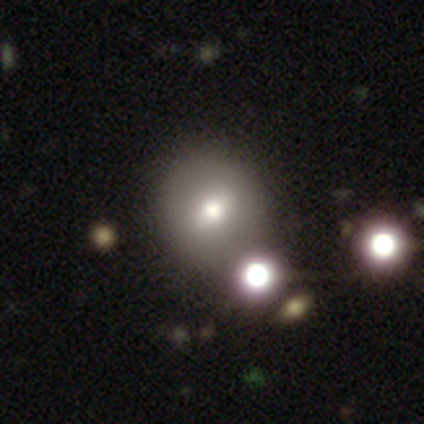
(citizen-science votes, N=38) This is possibly a smooth galaxy (53%). How rounded: clearly round (85%). Merging: likely none (73%).